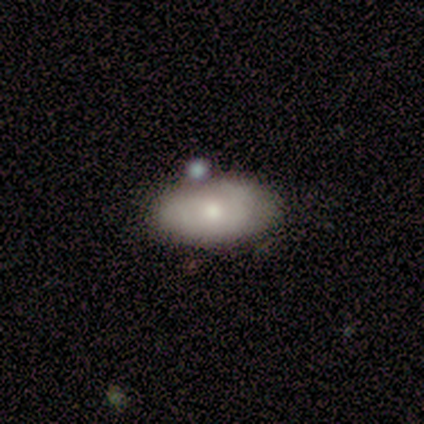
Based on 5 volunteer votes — This appears to be a featured or disk galaxy (60%) with no bar (100%), no spiral arms (100%) and a moderate central bulge (67%). Merging: none (60%).